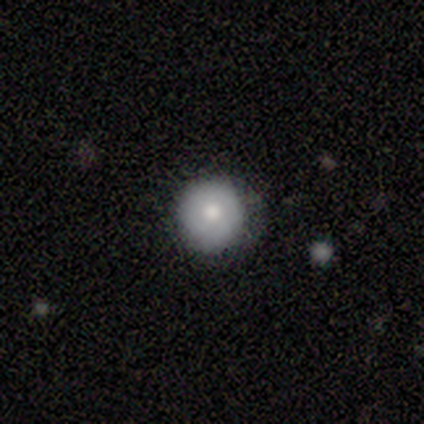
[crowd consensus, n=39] Overall: smooth (85%). How rounded: round (100%). Merging: none (74%).